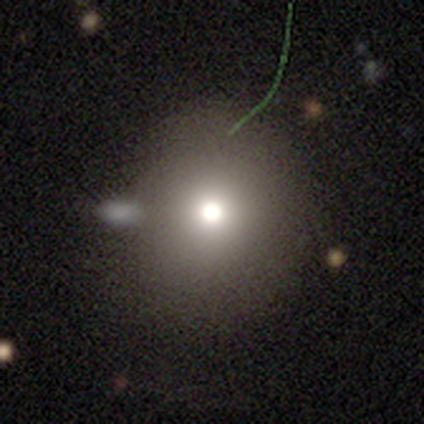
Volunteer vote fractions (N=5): A smooth galaxy with no disk features (40%, tied with featured or disk) that is round (100%). Merging: none (100%).